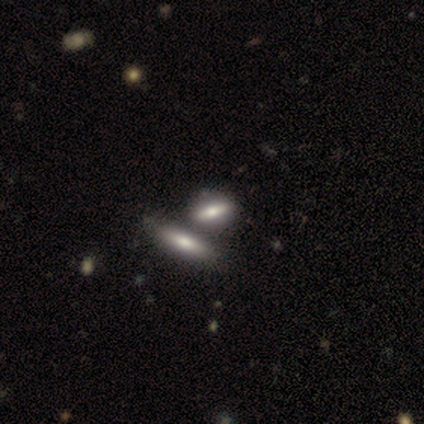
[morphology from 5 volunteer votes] smooth_or_featured: smooth (p=0.60) [alt: featured or disk p=0.40]
how_rounded: in between (p=0.67) [alt: cigar-shaped p=0.33]
merging: none (p=0.80) [alt: major disturbance p=0.20]